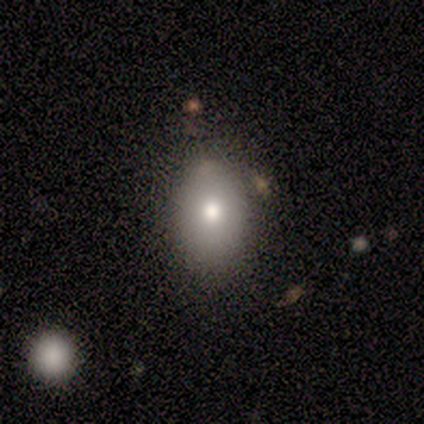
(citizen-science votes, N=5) smooth_or_featured: smooth (p=1.00)
how_rounded: in between (p=1.00)
merging: none (p=0.60) [alt: minor disturbance p=0.40]